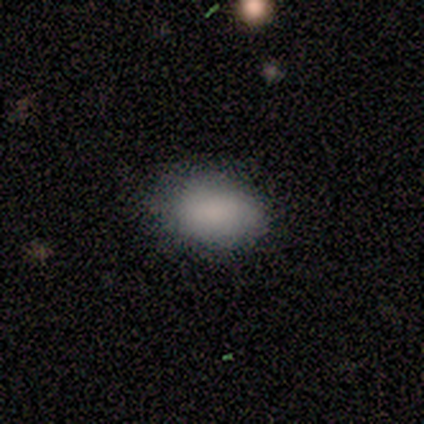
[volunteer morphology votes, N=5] This appears to be a smooth galaxy with no disk features (100%) that is in between round and cigar-shaped (100%). Merging: minor disturbance (60%).